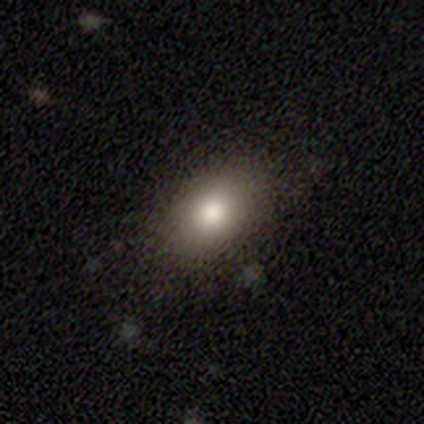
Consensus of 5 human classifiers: This is clearly a smooth galaxy (80%). How rounded: likely in between (75%). Merging: clearly none (100%).